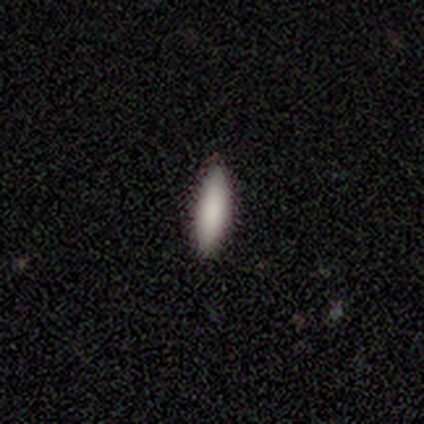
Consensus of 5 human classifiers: Smooth or featured: smooth — 100%
How rounded: in between — 60% (cigar-shaped — 40%)
Merging: none — 100%